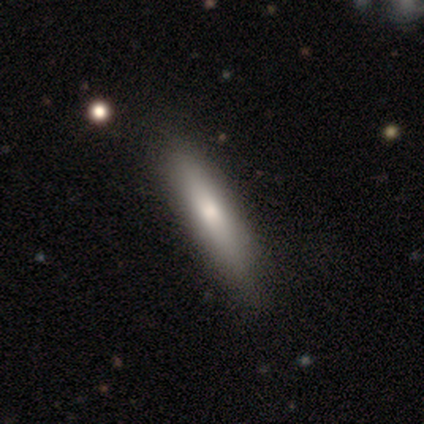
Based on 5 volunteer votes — Morphology: type=featured or disk (60%); edge-on=yes (100%); edge-on bulge=none (67%); merging=none (100%).